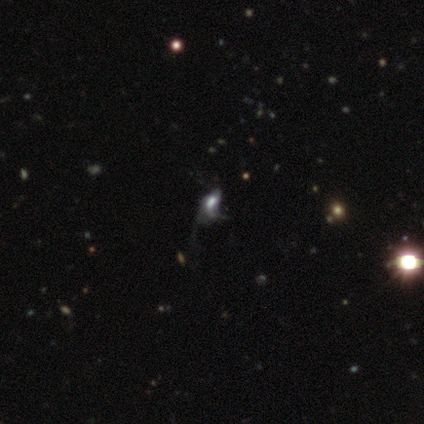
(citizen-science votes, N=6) Morphology: type=smooth (50%); roundness=in between (100%); merging=major disturbance (60%).